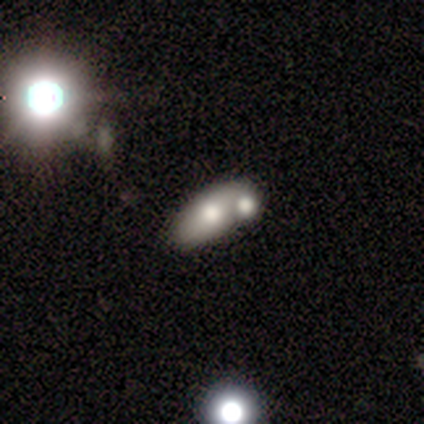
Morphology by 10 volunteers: smooth 60%, featured or disk 30%, star or artifact 10%. Down the decision tree: how rounded — in between (83%); merging — merger (67%).